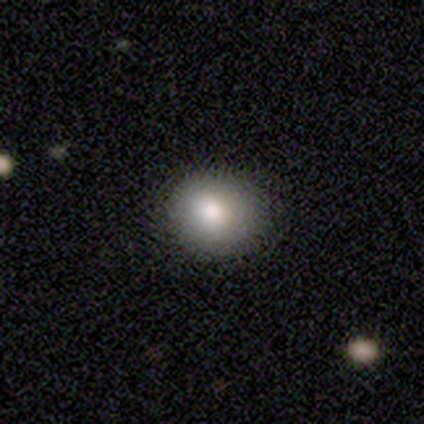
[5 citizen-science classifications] Smooth or featured? smooth (100%)
How rounded? round (80%)
Merging? none (100%)